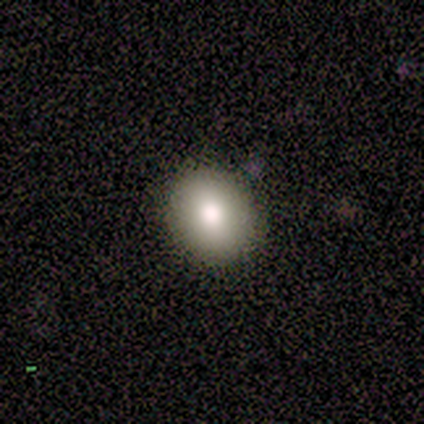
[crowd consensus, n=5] smooth_or_featured: smooth (p=0.60) [alt: featured or disk p=0.40]
how_rounded: in between (p=1.00)
merging: none (p=0.80) [alt: minor disturbance p=0.20]